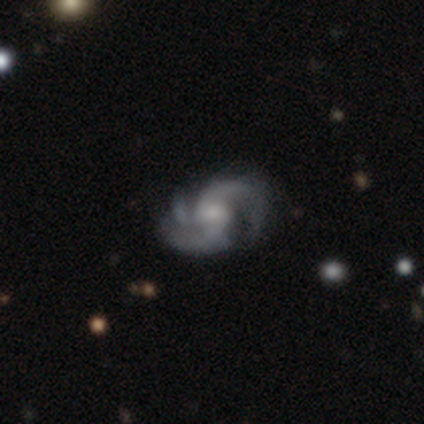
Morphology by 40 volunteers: type=featured or disk (88%); edge-on=no (100%); bar=no (51%); spiral arms=yes (100%); winding=medium (43%); arm count=3 (49%); bulge=moderate (43%); merging=none (65%).